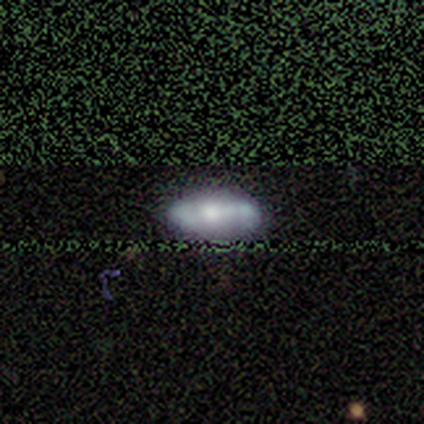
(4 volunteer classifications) Morphology: type=smooth (50%, tied with featured or disk); roundness=in between (50%, tied with cigar-shaped); merging=none (100%).